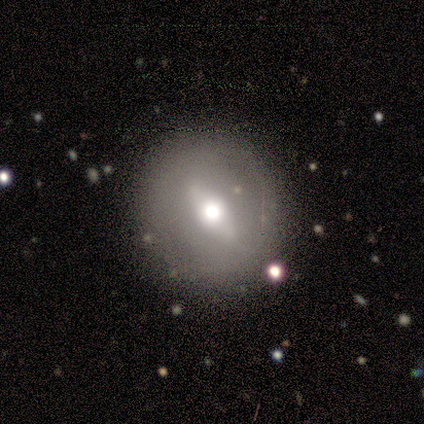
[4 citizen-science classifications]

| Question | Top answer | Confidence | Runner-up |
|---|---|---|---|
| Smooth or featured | smooth | 75% | star or artifact (25%) |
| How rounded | round | 100% | — |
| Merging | none | 67% | minor disturbance (33%) |